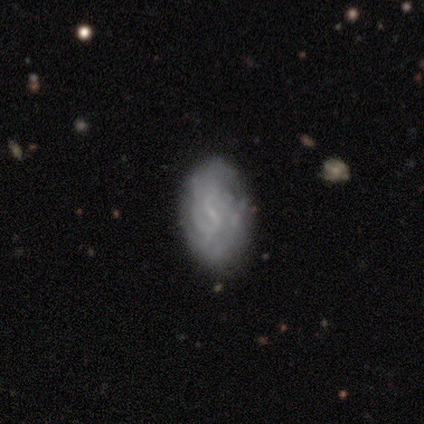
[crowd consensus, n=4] Q: Smooth or featured?
A: featured or disk (75%); runner-up: smooth (25%)
Q: Edge-on disk?
A: no (100%)
Q: Bar?
A: weak (67%); runner-up: no (33%)
Q: Spiral arms?
A: no (67%); runner-up: yes (33%)
Q: Bulge size?
A: small (67%); runner-up: none (33%)
Q: Merging?
A: none (75%); runner-up: major disturbance (25%)